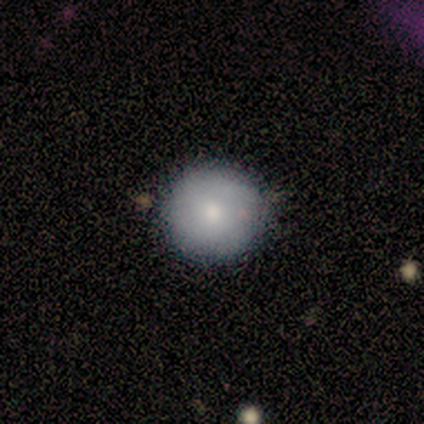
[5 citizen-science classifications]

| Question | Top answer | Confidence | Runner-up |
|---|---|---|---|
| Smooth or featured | smooth | 80% | featured or disk (20%) |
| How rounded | round | 100% | — |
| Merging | none | 80% | minor disturbance (20%) |